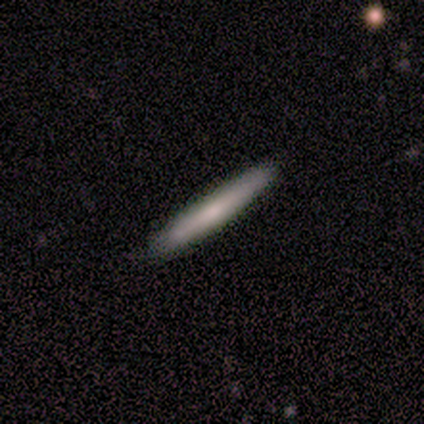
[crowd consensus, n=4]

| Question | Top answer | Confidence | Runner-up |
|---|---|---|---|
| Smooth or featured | smooth | 50% | tied: featured or disk (50%) |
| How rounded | cigar-shaped | 100% | — |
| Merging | none | 100% | — |